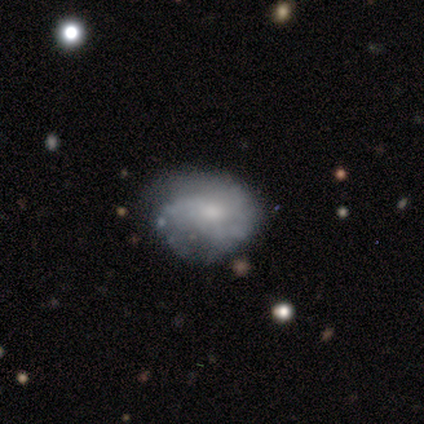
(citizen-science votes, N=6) Smooth or featured? smooth (50%, tied with featured or disk)
How rounded? in between (100%)
Merging? minor disturbance (67%)